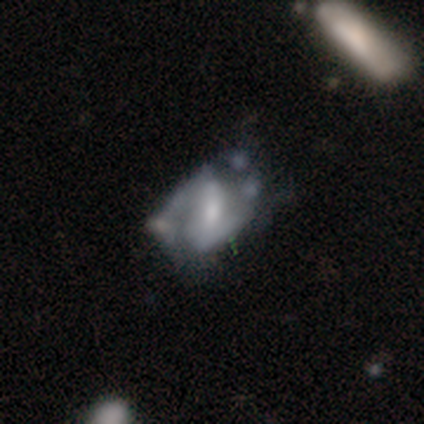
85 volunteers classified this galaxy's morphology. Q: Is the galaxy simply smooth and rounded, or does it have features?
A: featured or disk — 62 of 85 (73%).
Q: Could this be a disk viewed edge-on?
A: no — 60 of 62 (97%).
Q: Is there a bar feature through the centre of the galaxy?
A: weak — 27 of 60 (45%).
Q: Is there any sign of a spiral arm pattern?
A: yes — 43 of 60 (72%).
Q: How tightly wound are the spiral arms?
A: medium — 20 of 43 (47%).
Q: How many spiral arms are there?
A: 2 — 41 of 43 (95%).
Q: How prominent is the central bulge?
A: small — 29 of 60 (48%).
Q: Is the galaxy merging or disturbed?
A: none — 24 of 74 (32%).